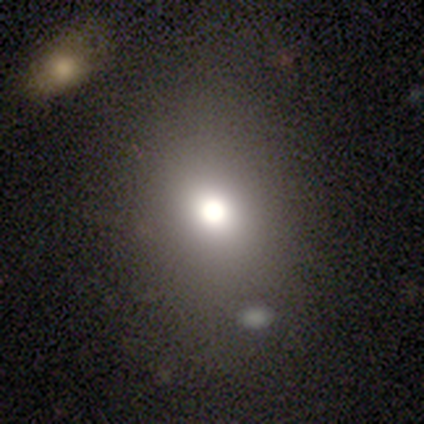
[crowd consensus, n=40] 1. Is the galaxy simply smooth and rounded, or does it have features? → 57% smooth, 28% star or artifact, 15% featured or disk.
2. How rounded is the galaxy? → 87% round, 13% in between, 0% cigar-shaped.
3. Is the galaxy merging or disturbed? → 86% none, 10% minor disturbance, 3% merger, 0% major disturbance.